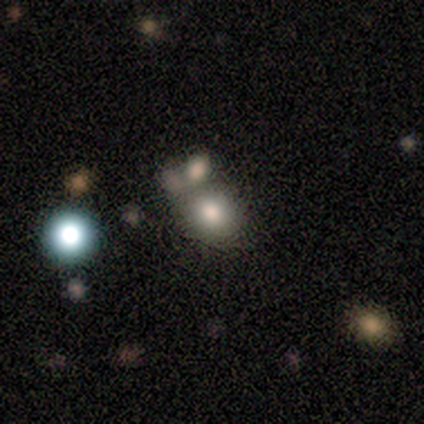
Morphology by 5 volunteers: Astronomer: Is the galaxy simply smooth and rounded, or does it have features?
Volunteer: smooth — 80%.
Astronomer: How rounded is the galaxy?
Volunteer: round — 75%.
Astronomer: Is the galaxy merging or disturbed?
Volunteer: none — 60%.